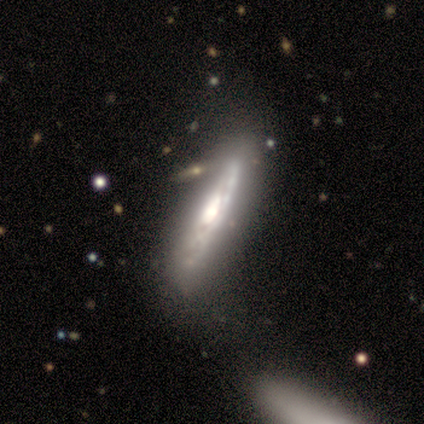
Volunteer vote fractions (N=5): Morphology: type=featured or disk (100%); edge-on=yes (60%); edge-on bulge=rounded (67%); merging=none (80%).